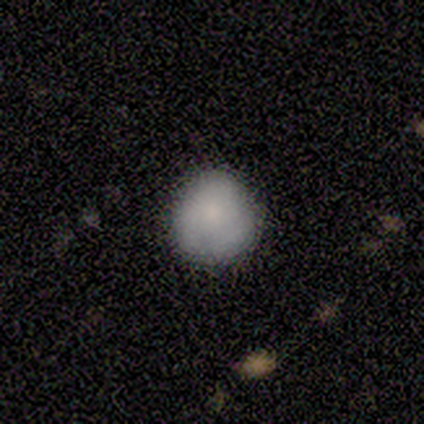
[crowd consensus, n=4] A smooth galaxy with no disk features (100%) that is round (100%).

Vote fractions:
- Smooth or featured? smooth: 100% / featured or disk: 0% / star or artifact: 0%
- How rounded? round: 100% / in between: 0% / cigar-shaped: 0%
- Merging? none: 50% (tied) / minor disturbance: 50% (tied) / major disturbance: 0% / merger: 0%